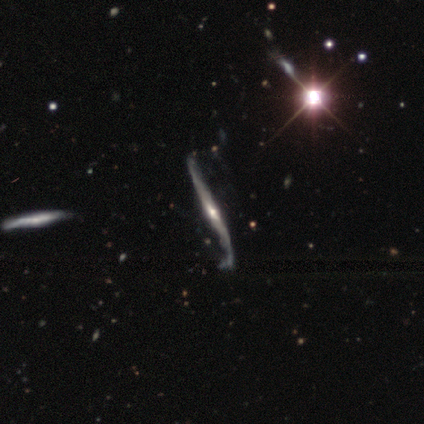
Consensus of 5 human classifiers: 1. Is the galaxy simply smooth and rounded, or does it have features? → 80% featured or disk, 20% smooth, 0% star or artifact.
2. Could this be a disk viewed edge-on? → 75% yes, 25% no.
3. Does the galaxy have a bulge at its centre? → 100% rounded, 0% boxy, 0% none.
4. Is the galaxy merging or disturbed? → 60% none, 40% minor disturbance, 0% major disturbance, 0% merger.